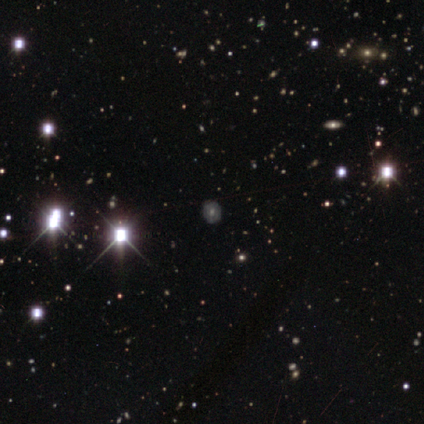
Smooth or featured: star or artifact — 75% (featured or disk — 25%)